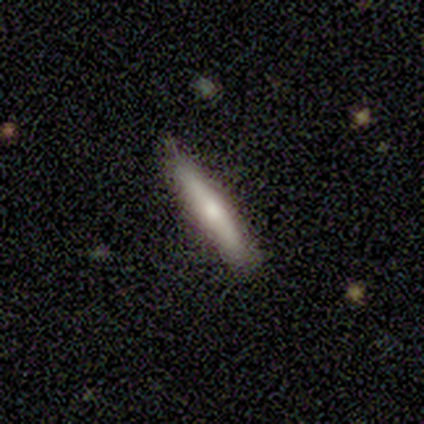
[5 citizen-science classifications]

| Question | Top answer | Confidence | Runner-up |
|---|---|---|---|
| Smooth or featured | featured or disk | 60% | smooth (40%) |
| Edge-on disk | yes | 67% | no (33%) |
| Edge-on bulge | rounded | 100% | — |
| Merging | none | 80% | minor disturbance (20%) |